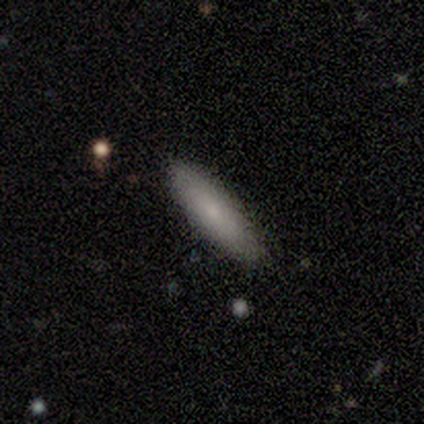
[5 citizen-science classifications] Smooth or featured? 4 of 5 (80%) said smooth. How rounded? 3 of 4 (75%) said cigar-shaped. Merging? 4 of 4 (100%) said none.